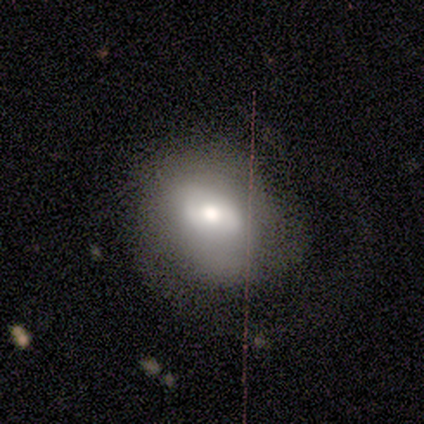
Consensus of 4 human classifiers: smooth_or_featured: smooth (p=0.75) [alt: featured or disk p=0.25]
how_rounded: in between (p=1.00)
merging: major disturbance (p=0.50) [alt: none p=0.25]